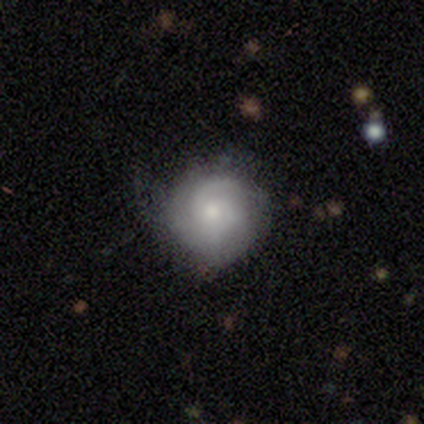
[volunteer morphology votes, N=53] smooth-or-featured: featured or disk: 64% | smooth: 28% | star or artifact: 8%
  disk-edge-on: no: 100% | yes: 0%
    bar: no: 88% | weak: 12% | strong: 0%
    has-spiral-arms: yes: 94% | no: 6%
      spiral-winding: tight: 53% | medium: 41% | loose: 6%
      spiral-arm-count: 2: 34% | can't tell: 28% | 1: 22% | 3: 16% | 4: 0% | more than 4: 0%
    bulge-size: small: 59% | moderate: 29% | large: 9% | dominant: 3% | none: 0%
  merging: none: 71% | minor disturbance: 16% | major disturbance: 10% | merger: 2%